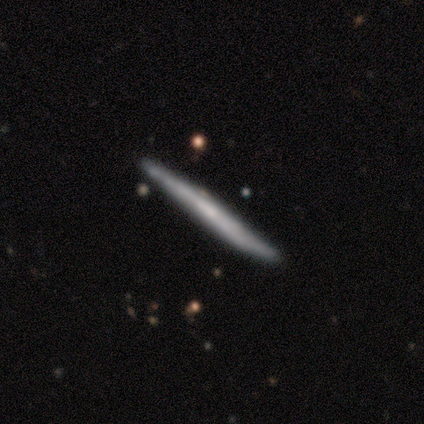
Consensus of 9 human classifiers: smooth-or-featured: featured or disk: 56% | smooth: 33% | star or artifact: 11%
  disk-edge-on: yes: 100% | no: 0%
    edge-on-bulge: none: 80% | rounded: 20% | boxy: 0%
  merging: none: 100% | minor disturbance: 0% | major disturbance: 0% | merger: 0%